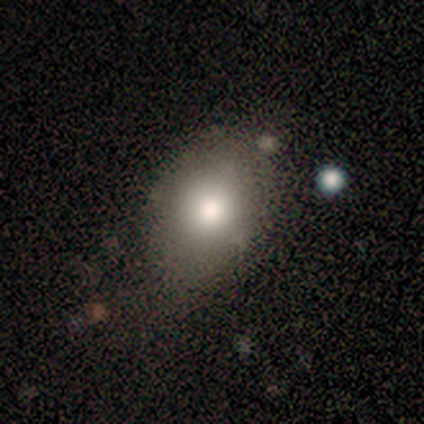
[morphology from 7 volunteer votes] smooth 86%, featured or disk 14%, star or artifact 0%. Down the decision tree: how rounded — in between (67%); merging — minor disturbance (57%).